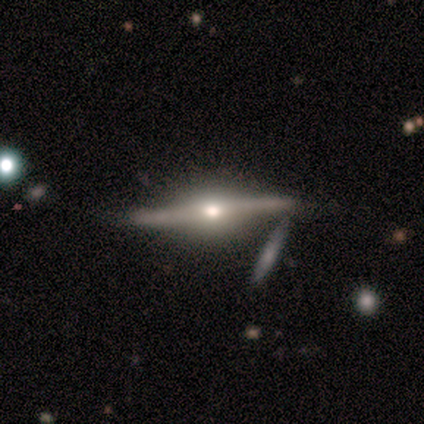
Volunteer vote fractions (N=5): featured or disk 80%, smooth 20%, star or artifact 0%. Down the decision tree: edge-on disk — yes (100%); edge-on bulge — rounded (100%); merging — none (80%).